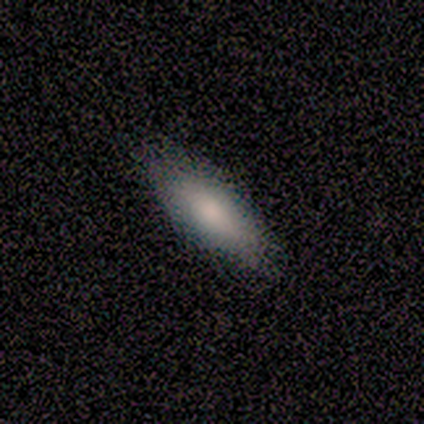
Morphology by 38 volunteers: Smooth or featured? 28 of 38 (74%) said smooth. How rounded? 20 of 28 (71%) said in between. Merging? 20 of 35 (57%) said none.